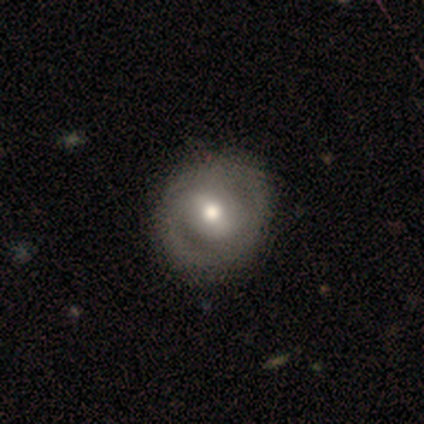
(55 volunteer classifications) A featured or disk galaxy (65%) with no bar (46%), no spiral arms (57%) and a moderate central bulge (80%).

Vote fractions:
- Smooth or featured? featured or disk: 65% / smooth: 35% / star or artifact: 0%
- Edge-on disk? no: 97% / yes: 3%
- Bar? no: 46% / weak: 37% / strong: 17%
- Spiral arms? no: 57% / yes: 43%
- Bulge size? moderate: 80% / small: 11% / large: 9% / dominant: 0% / none: 0%
- Merging? none: 87% / minor disturbance: 11% / major disturbance: 2% / merger: 0%